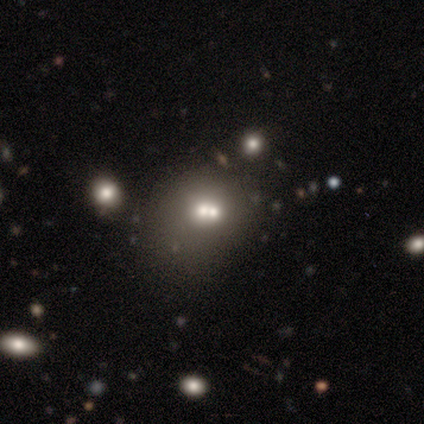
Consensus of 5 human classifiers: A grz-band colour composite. It shows a smooth galaxy with no disk features (40%, tied with featured or disk) that is round (100%). Merging: none (50%, tied with merger).